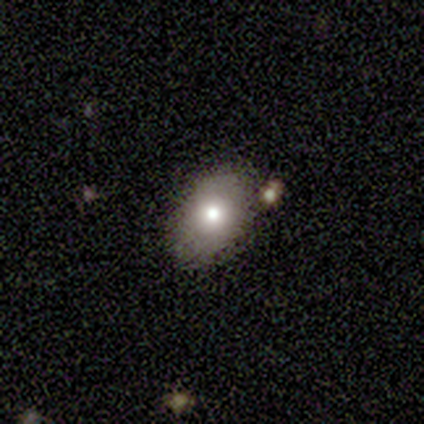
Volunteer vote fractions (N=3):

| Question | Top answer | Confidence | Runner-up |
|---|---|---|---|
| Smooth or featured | smooth | 67% | featured or disk (33%) |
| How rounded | in between | 100% | — |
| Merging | none | 67% | minor disturbance (33%) |